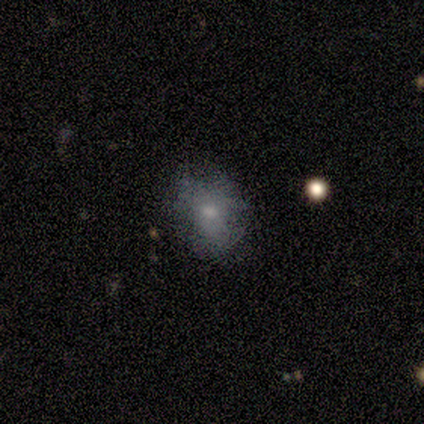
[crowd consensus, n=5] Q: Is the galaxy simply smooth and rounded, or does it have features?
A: smooth — 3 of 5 (60%).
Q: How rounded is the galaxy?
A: round — 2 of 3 (67%).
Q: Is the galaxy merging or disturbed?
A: none — 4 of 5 (80%).